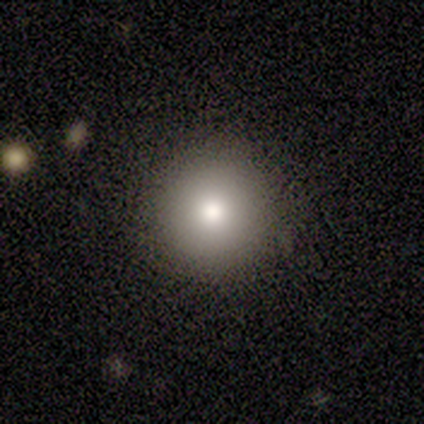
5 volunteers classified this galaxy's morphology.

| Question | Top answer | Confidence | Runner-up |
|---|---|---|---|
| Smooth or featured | smooth | 80% | featured or disk (20%) |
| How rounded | round | 100% | — |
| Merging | none | 100% | — |